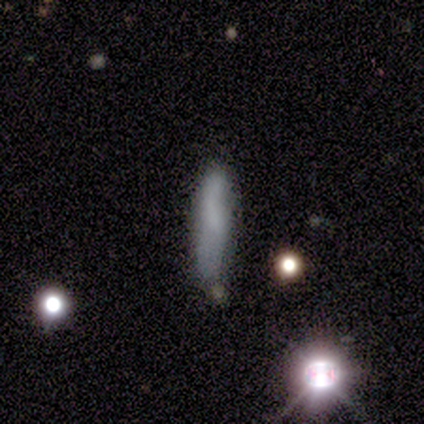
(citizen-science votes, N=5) Overall: smooth (40%, tied with featured or disk). How rounded: cigar-shaped (100%). Merging: major disturbance (50%; none 25%).